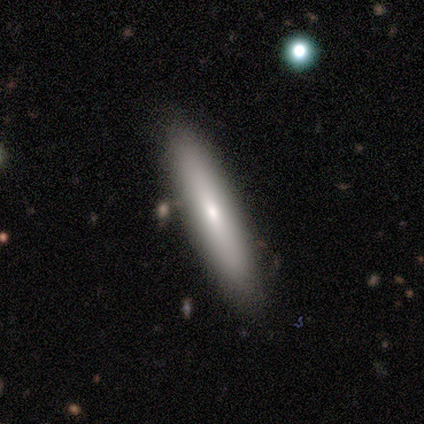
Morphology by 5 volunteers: Smooth or featured? 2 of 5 (40%, tied with featured or disk) said smooth. How rounded? 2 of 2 (100%) said cigar-shaped. Merging? 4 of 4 (100%) said none.